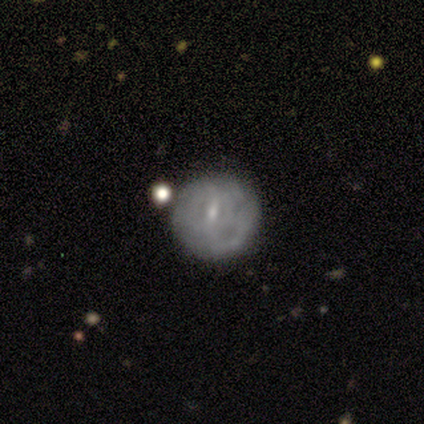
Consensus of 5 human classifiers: smooth_or_featured: featured or disk (p=0.80) [alt: smooth p=0.20]
disk_edge_on: no (p=1.00)
bar: weak (p=0.50) [tied with: no p=0.50]
has_spiral_arms: no (p=0.75) [alt: yes p=0.25]
bulge_size: small (p=1.00)
merging: none (p=1.00)